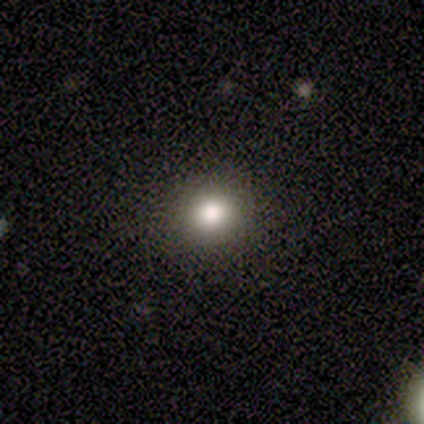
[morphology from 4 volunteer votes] Smooth or featured? 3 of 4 (75%) said smooth. How rounded? 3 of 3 (100%) said round. Merging? 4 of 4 (100%) said none.